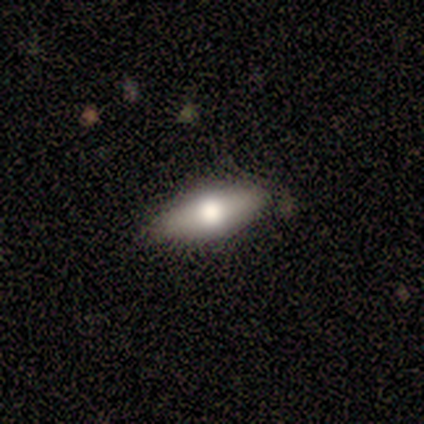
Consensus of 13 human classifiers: Smooth or featured? smooth (77%)
How rounded? in between (70%)
Merging? none (77%)